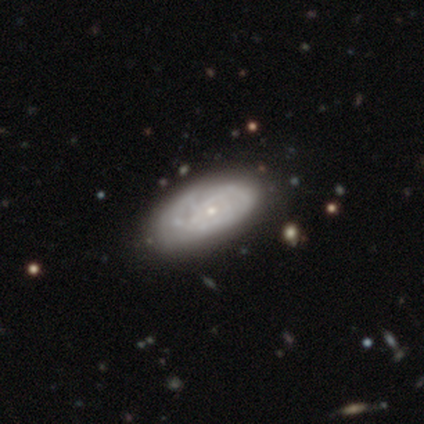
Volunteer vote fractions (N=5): This appears to be a featured or disk galaxy (80%) with no bar (67%), tight (100%) spiral arms (67%) and a small central bulge (67%). Merging: none (75%).